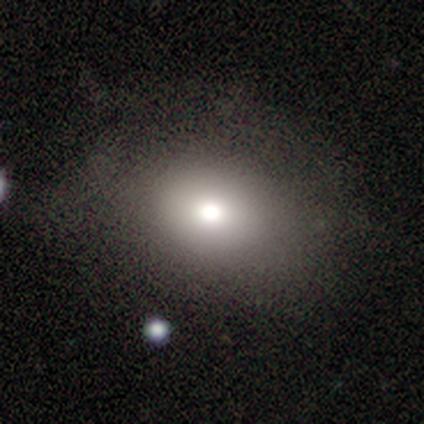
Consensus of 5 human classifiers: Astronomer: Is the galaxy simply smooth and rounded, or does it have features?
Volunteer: smooth — 60%.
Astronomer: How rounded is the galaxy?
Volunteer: in between — 67%.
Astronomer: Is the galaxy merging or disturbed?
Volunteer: minor disturbance — 50%.